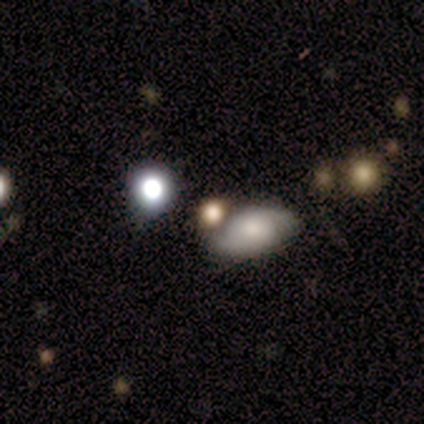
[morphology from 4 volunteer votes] Q: Smooth or featured?
A: smooth (50%); runner-up: featured or disk (25%)
Q: How rounded?
A: in between (100%)
Q: Merging?
A: merger (67%); runner-up: none (33%)